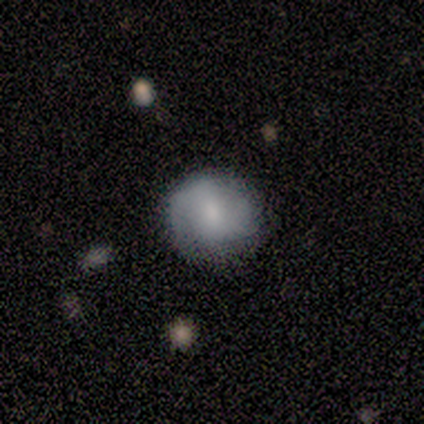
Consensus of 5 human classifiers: Smooth or featured? featured or disk (40%, tied with star or artifact)
Edge-on disk? no (100%)
Bar? no (100%)
Spiral arms? yes (50%, tied with no)
Spiral winding? medium (100%)
Spiral arm count? can't tell (100%)
Bulge size? moderate (100%)
Merging? none (67%)